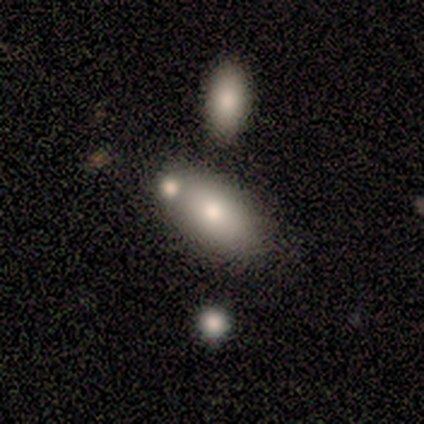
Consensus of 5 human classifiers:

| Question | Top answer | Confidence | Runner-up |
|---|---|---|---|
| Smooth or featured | smooth | 80% | featured or disk (20%) |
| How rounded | in between | 100% | — |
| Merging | none | 60% | merger (40%) |